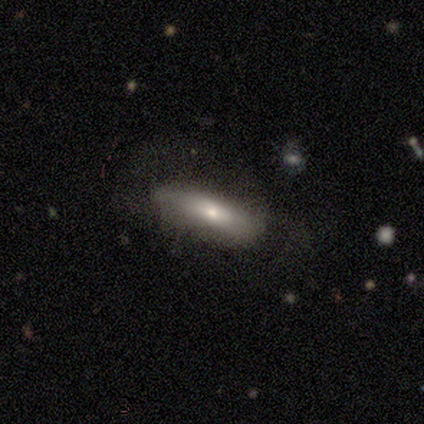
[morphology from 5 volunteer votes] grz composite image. It shows a smooth galaxy with no disk features (60%) that is cigar-shaped (67%). Merging: none (80%).